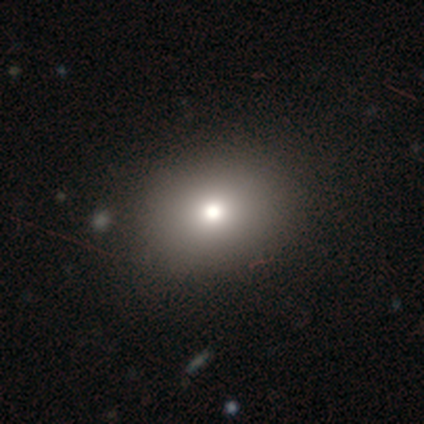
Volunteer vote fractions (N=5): Smooth or featured? 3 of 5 (60%) said smooth. How rounded? 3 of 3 (100%) said in between. Merging? 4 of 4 (100%) said none.